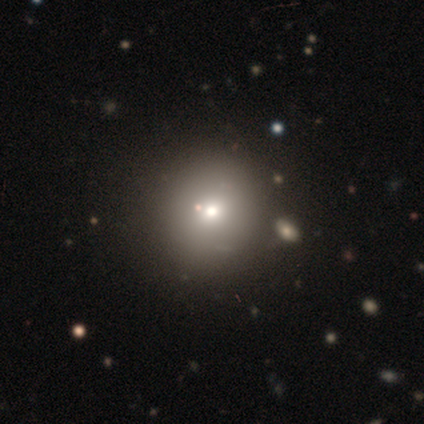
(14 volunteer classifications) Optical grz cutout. It shows a smooth galaxy with no disk features (79%) that is round (100%). Merging: none (50%).